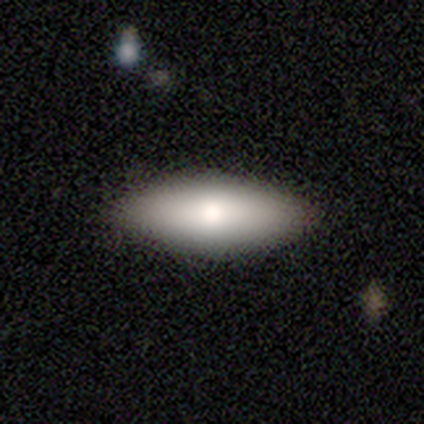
Volunteers were most divided on "how rounded": cigar-shaped: 75%, in between: 25%, round: 0%. More confident: merging — none (100%); smooth or featured — smooth (80%).